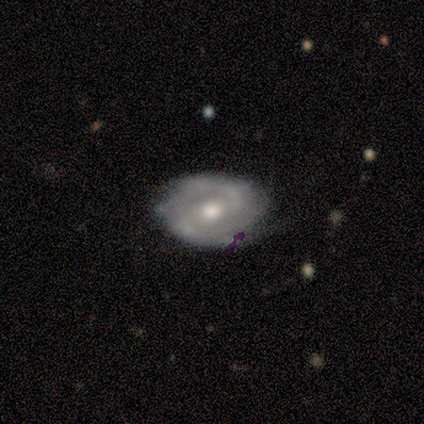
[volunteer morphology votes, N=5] Smooth or featured: featured or disk — 60% (smooth — 20%)
Edge-on disk: no — 100%
Bar: no — 67% (weak — 33%)
Spiral arms: yes — 100%
Spiral winding: medium — 67% (loose — 33%)
Spiral arm count: 2 — 33% (tied with 4 — 33%; can't tell — 33%)
Bulge size: moderate — 100%
Merging: minor disturbance — 75% (none — 25%)